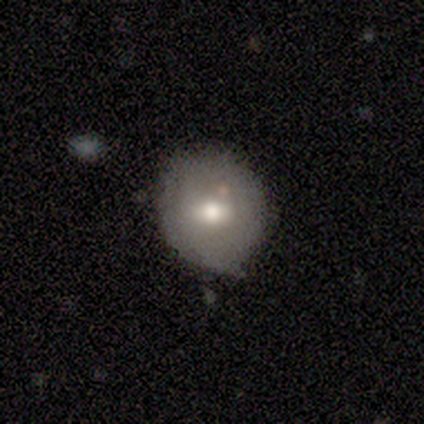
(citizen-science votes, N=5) smooth_or_featured: smooth (p=0.80) [alt: star or artifact p=0.20]
how_rounded: round (p=1.00)
merging: none (p=0.50) [alt: minor disturbance p=0.25]